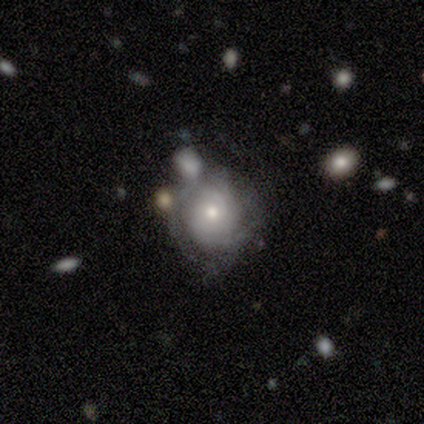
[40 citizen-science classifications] Smooth or featured?
  - featured or disk: 85% *
  - smooth: 10%
  - star or artifact: 5%
Edge-on disk?
  - no: 94% *
  - yes: 6%
Bar?
  - no: 75% *
  - weak: 19%
  - strong: 6%
Spiral arms?
  - yes: 88% *
  - no: 12%
Spiral winding?
  - tight: 64% *
  - medium: 29%
  - loose: 7%
Spiral arm count?
  - can't tell: 43% *
  - 2: 25%
  - 3: 18%
  - 1: 11%
  - 4: 4%
  - more than 4: 0%
Bulge size?
  - moderate: 47% *
  - small: 44%
  - large: 6%
  - dominant: 3%
  - none: 0%
Merging?
  - none: 53% *
  - merger: 26%
  - minor disturbance: 18%
  - major disturbance: 3%